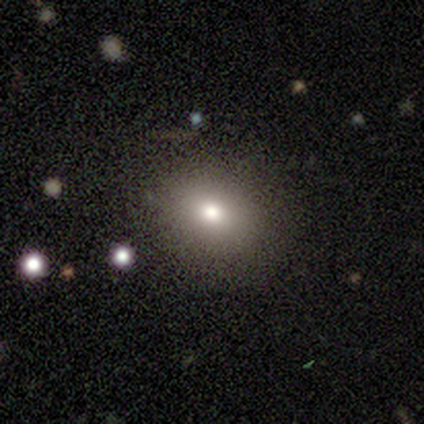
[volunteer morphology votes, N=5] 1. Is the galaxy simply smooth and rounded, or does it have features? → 40% smooth (tied), 40% star or artifact (tied), 20% featured or disk.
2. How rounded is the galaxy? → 50% round (tied), 50% in between (tied), 0% cigar-shaped.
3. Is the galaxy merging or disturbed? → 67% none, 33% minor disturbance, 0% major disturbance, 0% merger.